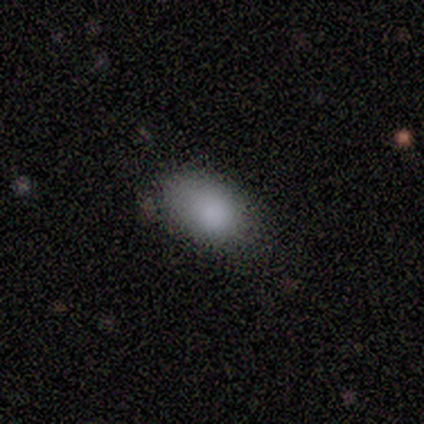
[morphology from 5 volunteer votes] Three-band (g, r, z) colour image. It shows a smooth galaxy with no disk features (100%) that is in between round and cigar-shaped (100%). Merging: none (80%).